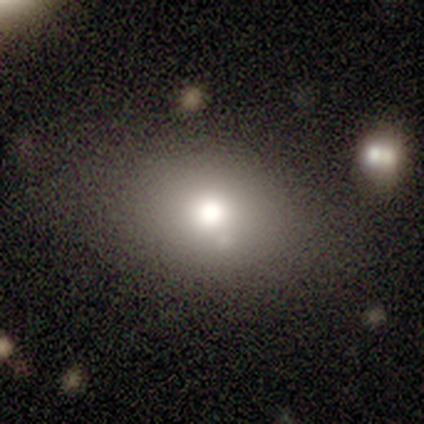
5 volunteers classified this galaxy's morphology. smooth 60%, featured or disk 20%, star or artifact 20%. Down the decision tree: how rounded — round (67%); merging — none (75%).